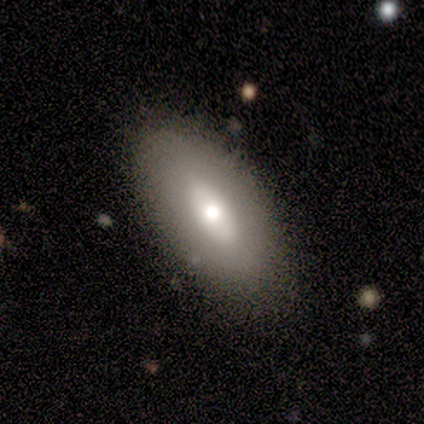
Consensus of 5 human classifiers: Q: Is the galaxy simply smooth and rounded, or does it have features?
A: featured or disk — 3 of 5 (60%).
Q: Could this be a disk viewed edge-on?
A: no — 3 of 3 (100%).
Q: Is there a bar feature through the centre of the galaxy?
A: no — 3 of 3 (100%).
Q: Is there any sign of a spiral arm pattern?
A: no — 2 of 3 (67%).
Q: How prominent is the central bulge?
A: small — 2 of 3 (67%).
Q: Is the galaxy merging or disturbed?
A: none — 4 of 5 (80%).